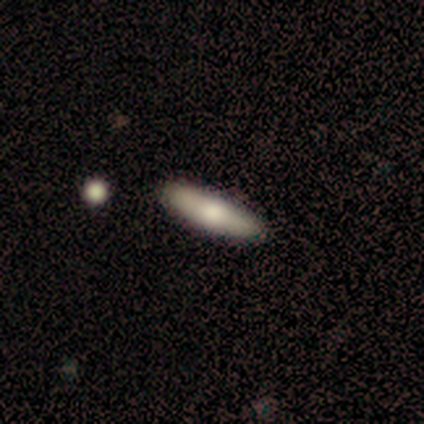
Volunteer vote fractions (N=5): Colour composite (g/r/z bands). It shows a smooth galaxy with no disk features (80%) that is cigar-shaped (75%). Merging: none (100%).